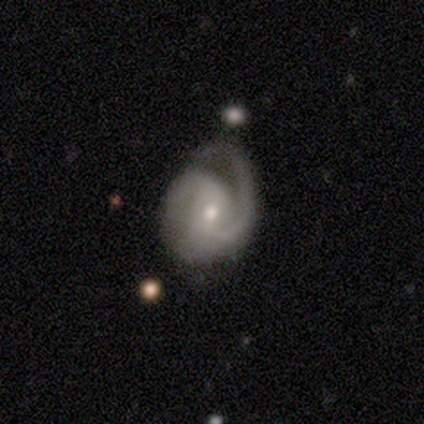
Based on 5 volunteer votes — featured or disk 100%, smooth 0%, star or artifact 0%. Down the decision tree: edge-on disk — no (100%); bar — no (60%); spiral arms — yes (100%); spiral arm count — 2 (80%); spiral winding — tight (40%, tied with medium); bulge size — moderate (60%); merging — none (60%).